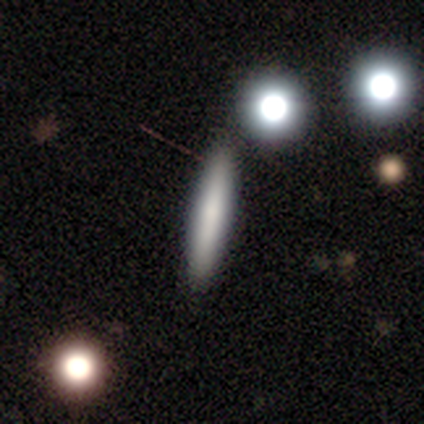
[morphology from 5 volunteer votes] smooth 80%, featured or disk 20%, star or artifact 0%. Down the decision tree: how rounded — cigar-shaped (100%); merging — none (100%).